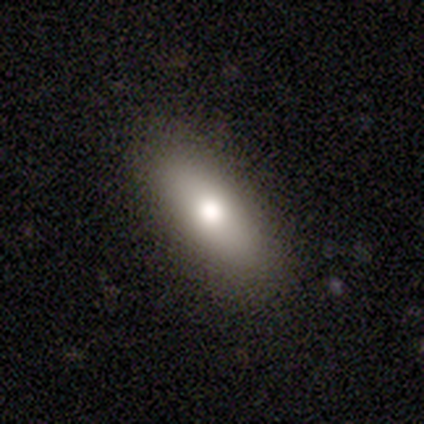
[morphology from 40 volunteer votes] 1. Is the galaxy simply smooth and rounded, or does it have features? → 72% smooth, 22% featured or disk, 5% star or artifact.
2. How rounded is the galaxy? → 59% in between, 34% cigar-shaped, 7% round.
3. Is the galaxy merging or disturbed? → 84% none, 13% minor disturbance, 3% major disturbance, 0% merger.